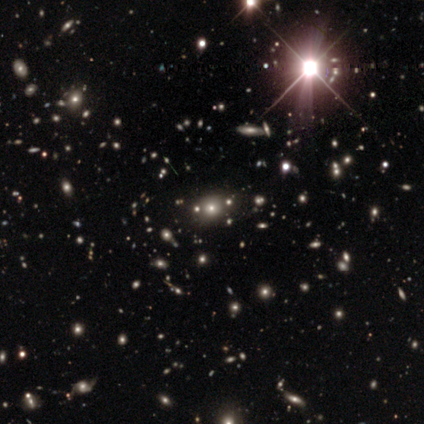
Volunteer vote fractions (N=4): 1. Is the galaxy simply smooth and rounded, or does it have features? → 50% star or artifact, 25% smooth, 25% featured or disk.